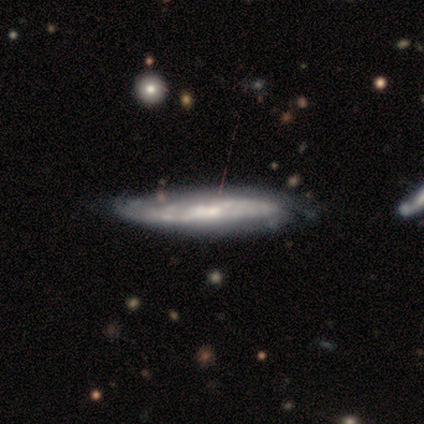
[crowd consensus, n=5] Smooth or featured? 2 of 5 (40%, tied with featured or disk) said smooth. How rounded? 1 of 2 (50%, tied with cigar-shaped) said in between. Merging? 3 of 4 (75%) said none.